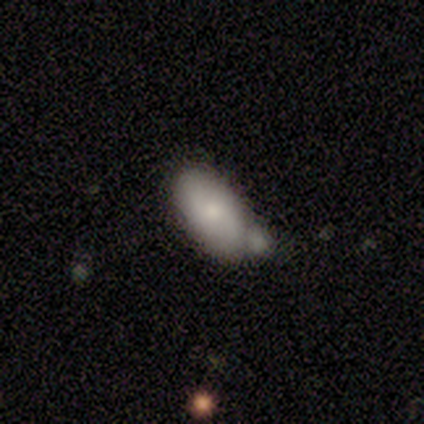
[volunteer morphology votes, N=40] Q: Smooth or featured?
A: smooth (72%); runner-up: featured or disk (18%)
Q: How rounded?
A: in between (93%); runner-up: round (3%)
Q: Merging?
A: none (44%); runner-up: minor disturbance (28%)